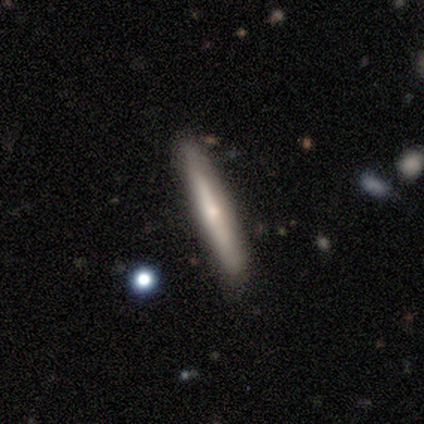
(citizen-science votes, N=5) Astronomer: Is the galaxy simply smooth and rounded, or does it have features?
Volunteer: smooth — 40%, tied with featured or disk at 40%.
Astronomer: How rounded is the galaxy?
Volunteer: cigar-shaped — 100%.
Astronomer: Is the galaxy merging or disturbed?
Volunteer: none — 75%.